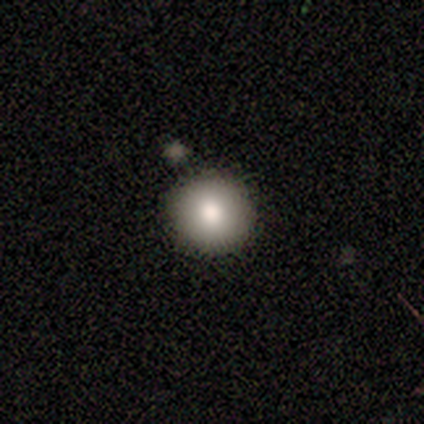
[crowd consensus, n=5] Q: Smooth or featured?
A: smooth (100%)
Q: How rounded?
A: round (100%)
Q: Merging?
A: none (80%); runner-up: merger (20%)